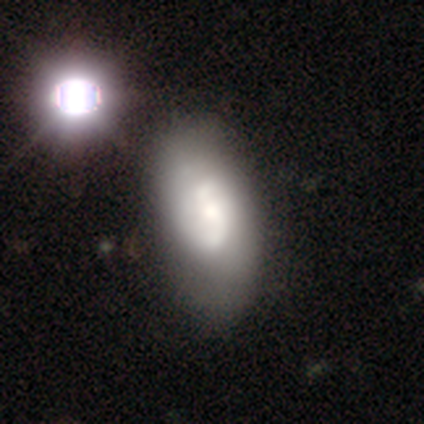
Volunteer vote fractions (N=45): Smooth or featured? featured or disk (49%)
Edge-on disk? no (95%)
Bar? no (52%)
Spiral arms? yes (67%)
Spiral winding? medium (57%)
Spiral arm count? 2 (100%)
Bulge size? small (48%)
Merging? none (62%)